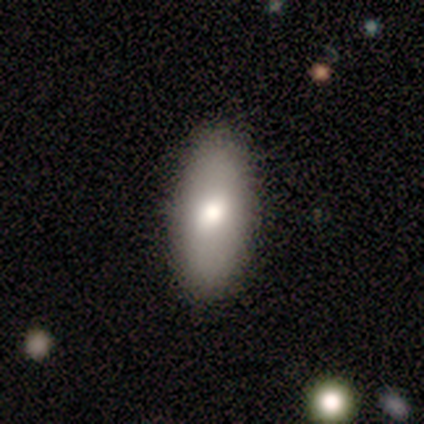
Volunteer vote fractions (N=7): Smooth or featured? smooth (57%)
How rounded? in between (100%)
Merging? none (86%)